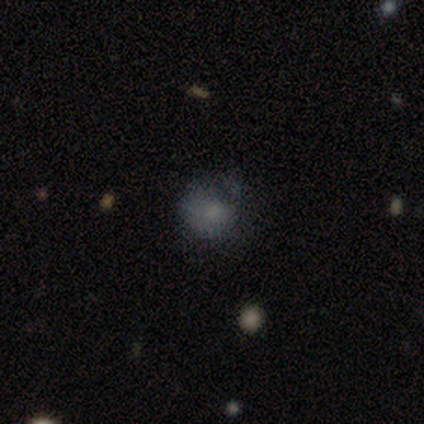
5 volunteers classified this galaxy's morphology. This appears to be a smooth galaxy with no disk features (100%) that is round (80%). Merging: none (80%).